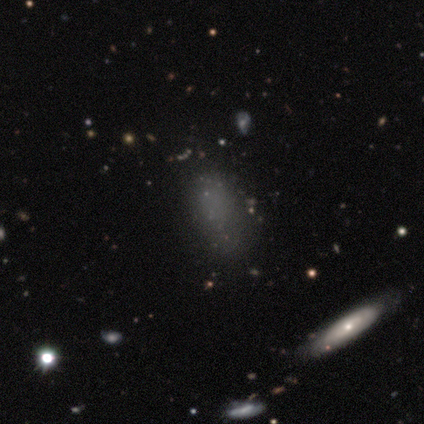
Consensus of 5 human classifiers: smooth_or_featured: smooth (p=1.00)
how_rounded: in between (p=0.80) [alt: cigar-shaped p=0.20]
merging: none (p=0.60) [alt: minor disturbance p=0.20]